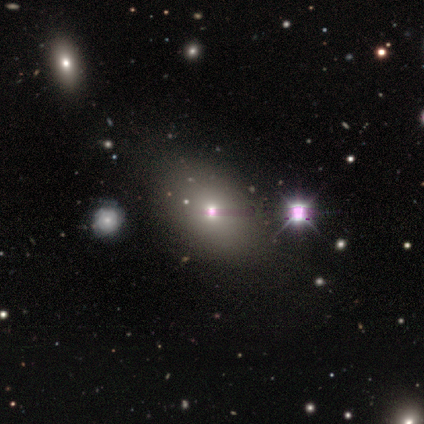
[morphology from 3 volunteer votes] A smooth galaxy with no disk features (100%) that is in between round and cigar-shaped (100%). Merging: none (100%).